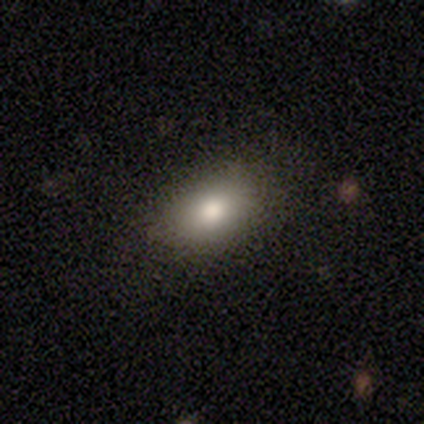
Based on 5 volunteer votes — A smooth galaxy with no disk features (80%) that is in between round and cigar-shaped (100%).

Vote fractions:
- Smooth or featured? smooth: 80% / star or artifact: 20% / featured or disk: 0%
- How rounded? in between: 100% / round: 0% / cigar-shaped: 0%
- Merging? none: 75% / minor disturbance: 25% / major disturbance: 0% / merger: 0%